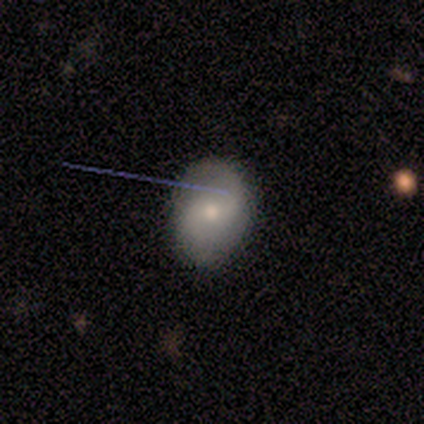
Smooth or featured? 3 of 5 (60%) said featured or disk. Edge-on disk? 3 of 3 (100%) said no. Bar? 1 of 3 (33%, tied with weak and no) said strong. Spiral arms? 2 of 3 (67%) said no. Bulge size? 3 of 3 (100%) said moderate. Merging? 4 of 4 (100%) said none.